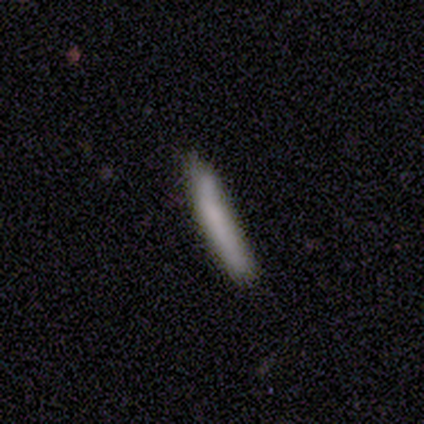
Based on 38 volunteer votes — Smooth or featured? smooth (89%)
How rounded? cigar-shaped (97%)
Merging? none (78%)